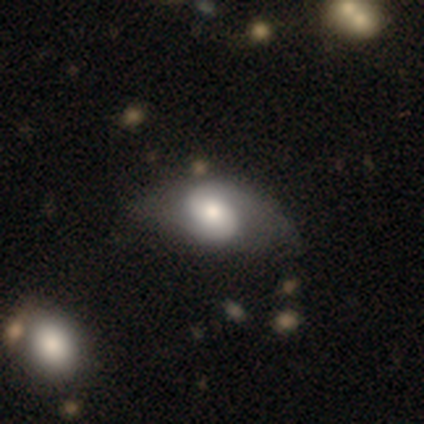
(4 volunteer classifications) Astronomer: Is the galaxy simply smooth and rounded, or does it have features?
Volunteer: featured or disk — 100%.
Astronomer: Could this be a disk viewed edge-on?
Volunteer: no — 100%.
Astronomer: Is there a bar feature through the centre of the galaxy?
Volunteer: no — 50%.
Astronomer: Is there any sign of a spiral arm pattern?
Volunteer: yes — 100%.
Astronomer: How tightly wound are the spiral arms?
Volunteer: medium — 50%, tied with loose at 50%.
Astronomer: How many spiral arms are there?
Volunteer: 2 — 100%.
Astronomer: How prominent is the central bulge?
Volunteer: large — 50%, tied with moderate at 50%.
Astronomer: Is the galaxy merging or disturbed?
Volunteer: none — 75%.